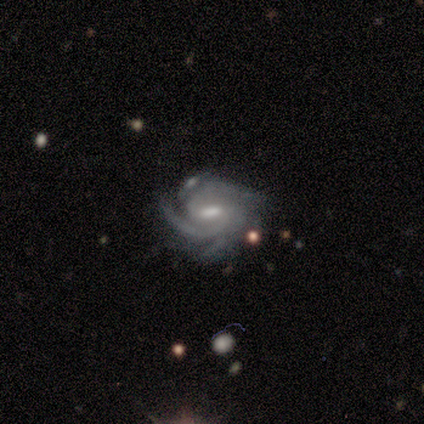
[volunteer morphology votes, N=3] This is clearly a featured or disk galaxy (100%). It is clearly not viewed edge-on (100%). Bar: likely weak (67%). Spiral arm pattern: clearly yes (100%). Spiral arm count: marginally 2 (33%, tied with 3 and 4). Spiral winding: clearly tight (100%). Central bulge: likely none (67%). Merging: likely none (67%).